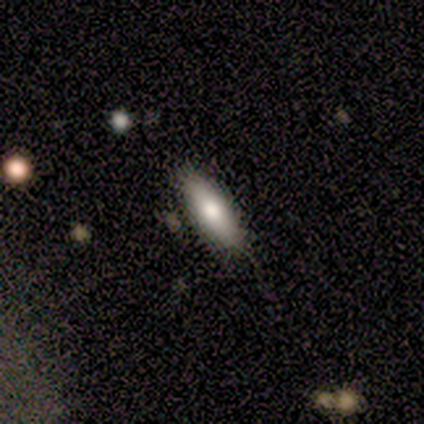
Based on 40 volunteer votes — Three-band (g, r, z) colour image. It shows a smooth galaxy with no disk features (72%) that is cigar-shaped (59%). Merging: none (87%).